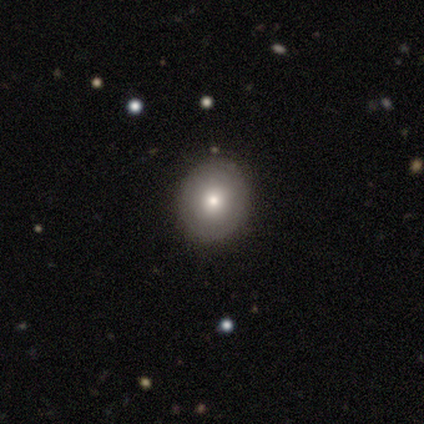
Smooth or featured: smooth — 60% (star or artifact — 40%)
How rounded: round — 67% (in between — 33%)
Merging: none — 100%